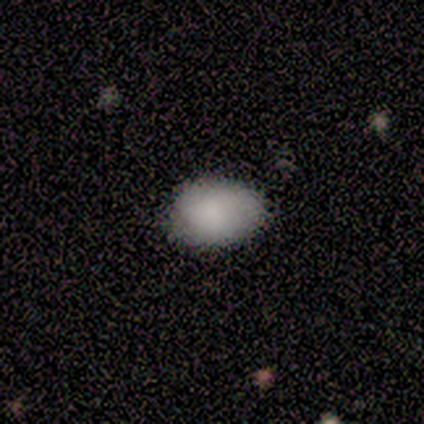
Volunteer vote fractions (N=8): Smooth or featured? smooth (88%)
How rounded? in between (100%)
Merging? none (100%)